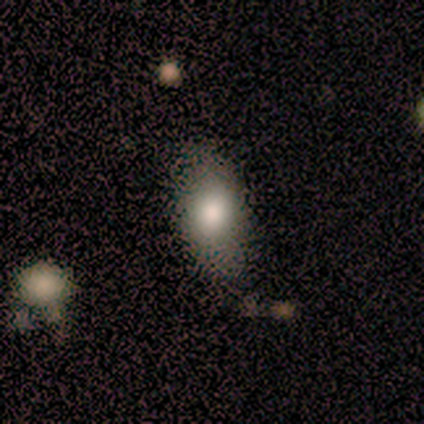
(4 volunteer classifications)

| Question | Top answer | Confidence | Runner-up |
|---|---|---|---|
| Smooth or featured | smooth | 75% | featured or disk (25%) |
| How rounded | in between | 67% | cigar-shaped (33%) |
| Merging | none | 100% | — |